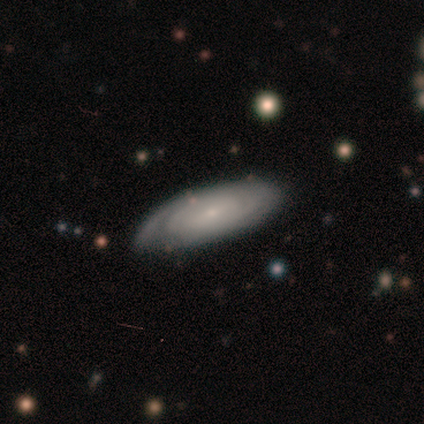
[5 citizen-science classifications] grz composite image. It shows a featured or disk galaxy (80%) viewed edge-on (50%, tied with no) with no central bulge (100%). Merging: none (80%).